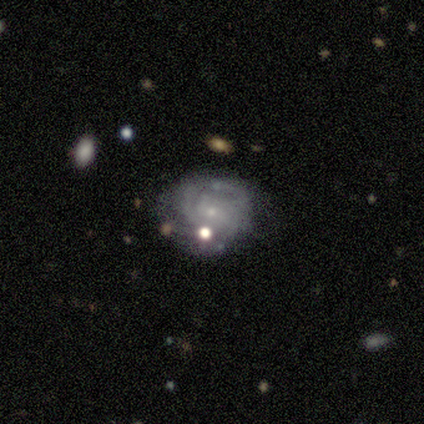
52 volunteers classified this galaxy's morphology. smooth-or-featured: featured or disk: 75% | smooth: 25% | star or artifact: 0%
  disk-edge-on: no: 100% | yes: 0%
    bar: no: 62% | weak: 28% | strong: 10%
    has-spiral-arms: yes: 82% | no: 18%
      spiral-winding: tight: 66% | medium: 19% | loose: 16%
      spiral-arm-count: can't tell: 59% | 2: 22% | 3: 16% | 4: 3% | 1: 0% | more than 4: 0%
    bulge-size: small: 82% | moderate: 13% | none: 5% | dominant: 0% | large: 0%
  merging: none: 65% | minor disturbance: 25% | major disturbance: 8% | merger: 2%